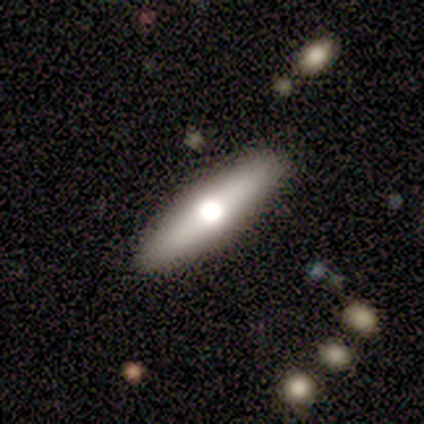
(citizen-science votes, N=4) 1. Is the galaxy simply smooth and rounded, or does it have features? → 75% featured or disk, 25% smooth, 0% star or artifact.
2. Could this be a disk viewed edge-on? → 100% yes, 0% no.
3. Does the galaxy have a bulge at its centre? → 67% rounded, 33% none, 0% boxy.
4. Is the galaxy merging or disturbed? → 100% none, 0% minor disturbance, 0% major disturbance, 0% merger.